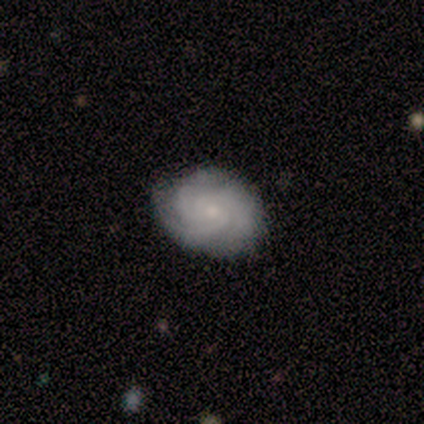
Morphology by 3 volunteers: This is likely a featured or disk galaxy (67%). It is clearly not viewed edge-on (100%). Bar: possibly weak (50%, tied with no). Spiral arm pattern: clearly yes (100%). Spiral arm count: possibly 3 (50%, tied with can't tell). Spiral winding: clearly tight (100%). Central bulge: clearly small (100%). Merging: likely none (67%).